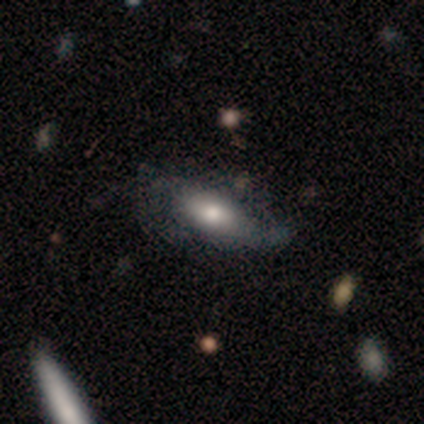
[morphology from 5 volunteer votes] Smooth or featured? featured or disk (60%)
Edge-on disk? no (67%)
Bar? no (100%)
Spiral arms? yes (50%, tied with no)
Spiral winding? medium (100%)
Spiral arm count? can't tell (100%)
Bulge size? dominant (50%, tied with moderate)
Merging? none (40%, tied with minor disturbance)